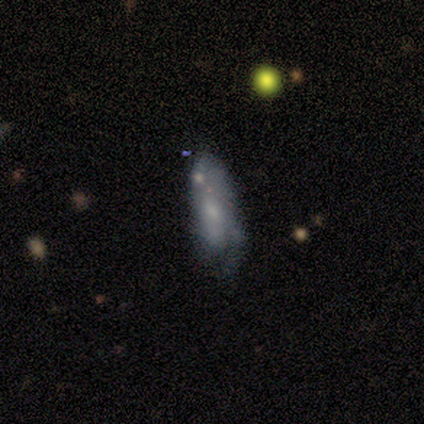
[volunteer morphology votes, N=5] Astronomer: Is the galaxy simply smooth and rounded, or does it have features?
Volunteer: smooth — 60% (runner-up: featured or disk, 40%).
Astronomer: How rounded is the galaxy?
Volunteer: in between — 67%.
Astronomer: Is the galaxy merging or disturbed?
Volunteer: none — 40%, tied with major disturbance at 40%.